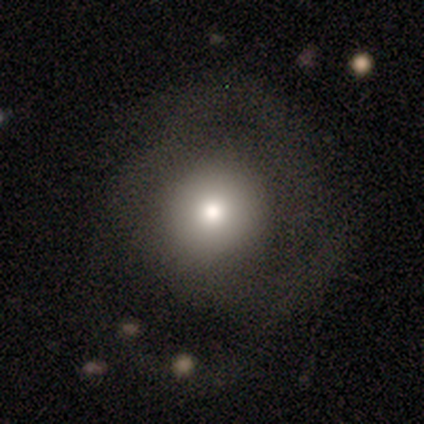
smooth 86%, featured or disk 14%, star or artifact 0%. Down the decision tree: how rounded — round (83%); merging — none (57%).